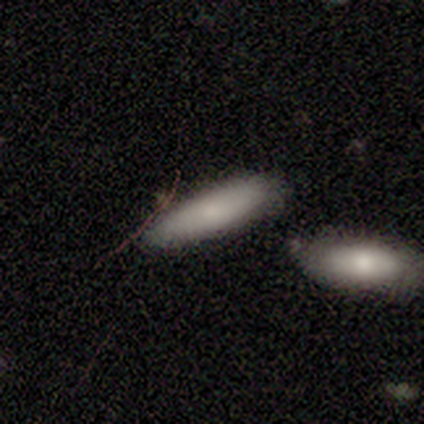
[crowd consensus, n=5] smooth_or_featured: smooth (p=0.80) [alt: featured or disk p=0.20]
how_rounded: in between (p=0.50) [tied with: cigar-shaped p=0.50]
merging: none (p=0.60) [alt: minor disturbance p=0.20]